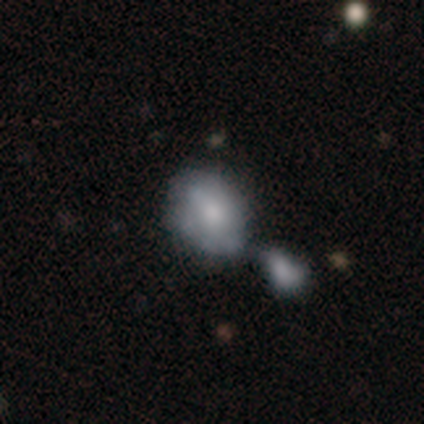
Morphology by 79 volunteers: Q: Smooth or featured?
A: smooth (58%); runner-up: featured or disk (38%)
Q: How rounded?
A: in between (57%); runner-up: round (39%)
Q: Merging?
A: merger (62%); runner-up: none (9%)